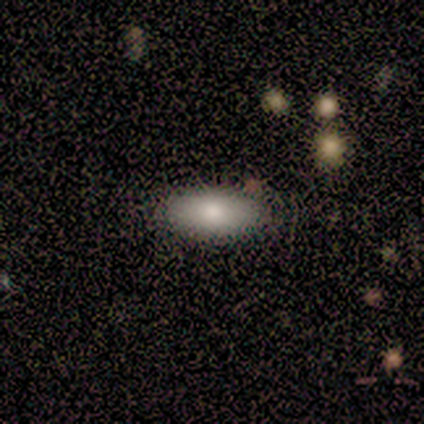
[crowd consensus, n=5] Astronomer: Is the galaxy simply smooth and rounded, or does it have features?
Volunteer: smooth — 80%.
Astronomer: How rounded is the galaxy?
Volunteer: in between — 100%.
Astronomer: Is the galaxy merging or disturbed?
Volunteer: none — 100%.